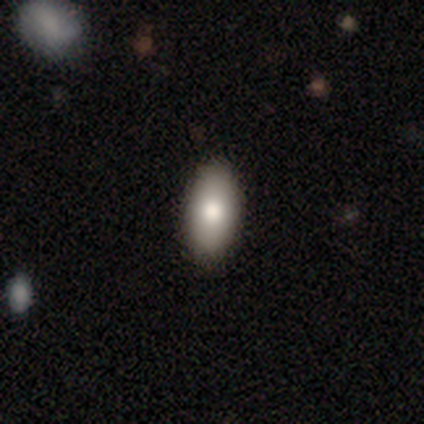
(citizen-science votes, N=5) A smooth galaxy with no disk features (100%) that is in between round and cigar-shaped (60%). Merging: none (40%, tied with minor disturbance).